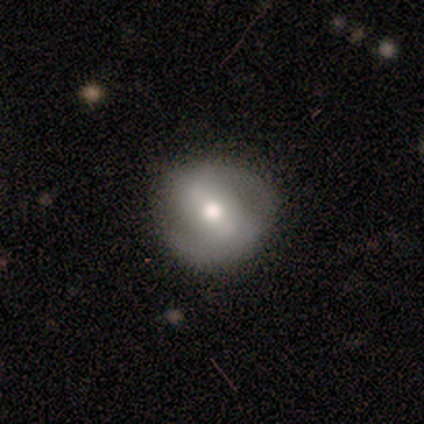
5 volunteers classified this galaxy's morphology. Volunteers were most divided on "smooth or featured" (2-way tie): smooth: 40%, featured or disk: 40%, star or artifact: 20%; "how rounded" (2-way tie): round: 50%, in between: 50%, cigar-shaped: 0%. More confident: merging — none (100%).